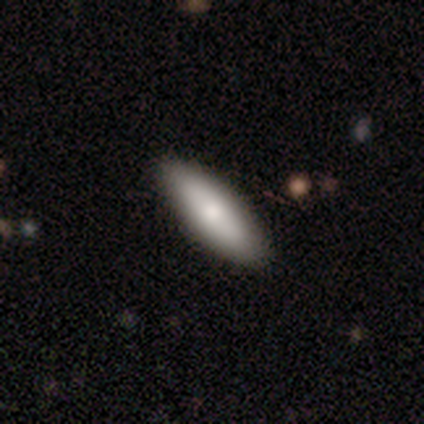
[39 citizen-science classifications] smooth-or-featured: smooth: 79% | featured or disk: 21% | star or artifact: 0%
  how-rounded: in between: 68% | cigar-shaped: 32% | round: 0%
  merging: none: 69% | merger: 3% | minor disturbance: 0% | major disturbance: 0%